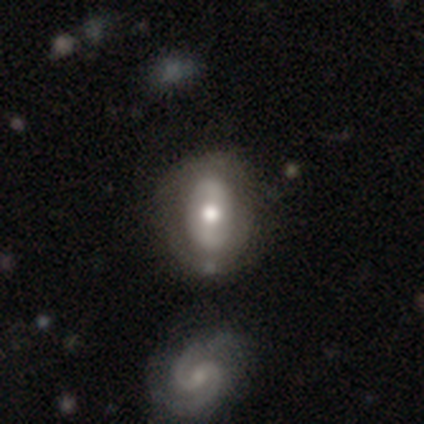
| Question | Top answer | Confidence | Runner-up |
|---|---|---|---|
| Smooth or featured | featured or disk | 50% | smooth (40%) |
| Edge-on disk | no | 100% | — |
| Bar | strong | 60% | no (40%) |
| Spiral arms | no | 80% | yes (20%) |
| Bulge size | moderate | 60% | large (40%) |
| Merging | none | 78% | minor disturbance (22%) |